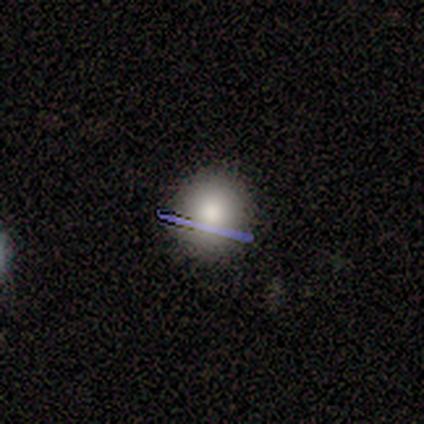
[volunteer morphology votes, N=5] smooth 80%, featured or disk 20%, star or artifact 0%. Down the decision tree: how rounded — round (100%); merging — none (100%).